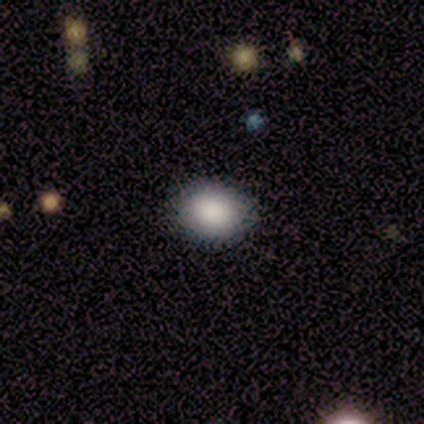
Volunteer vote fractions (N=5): A smooth galaxy with no disk features (80%) that is round (50%, tied with in between). Merging: none (100%).